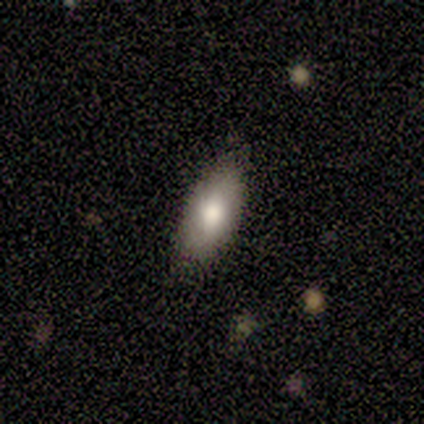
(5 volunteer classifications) Smooth or featured? 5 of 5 (100%) said smooth. How rounded? 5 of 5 (100%) said in between. Merging? 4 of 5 (80%) said none.